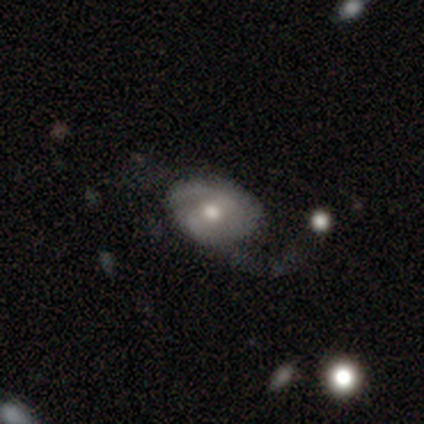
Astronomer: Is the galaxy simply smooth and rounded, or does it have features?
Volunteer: featured or disk — 100%.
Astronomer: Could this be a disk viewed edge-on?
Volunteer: no — 100%.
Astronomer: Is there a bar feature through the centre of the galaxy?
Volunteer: no — 100%.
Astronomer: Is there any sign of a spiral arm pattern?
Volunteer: no — 60% (runner-up: yes, 40%).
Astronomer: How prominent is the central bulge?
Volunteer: moderate — 80%.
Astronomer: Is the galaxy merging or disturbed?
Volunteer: none — 60%.